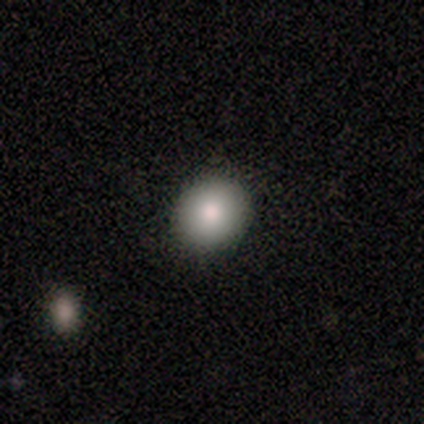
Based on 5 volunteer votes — Smooth or featured? 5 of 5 (100%) said smooth. How rounded? 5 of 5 (100%) said round. Merging? 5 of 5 (100%) said none.